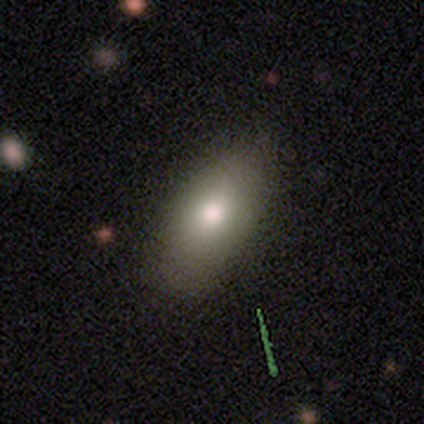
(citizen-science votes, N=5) Q: Smooth or featured?
A: smooth (60%); runner-up: star or artifact (40%)
Q: How rounded?
A: in between (100%)
Q: Merging?
A: none (100%)